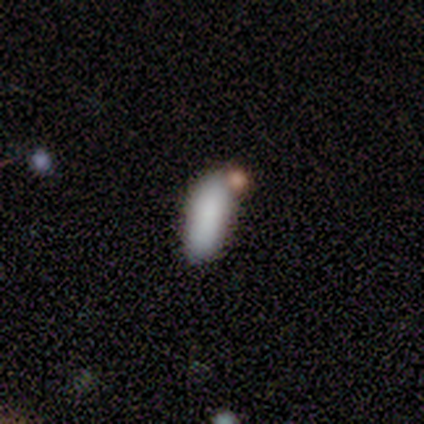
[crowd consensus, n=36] Overall: smooth (81%). How rounded: in between (66%; cigar-shaped 34%). Merging: none (61%; merger 21%).